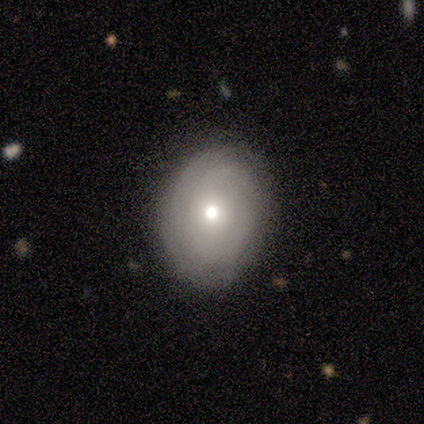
featured or disk 57%, smooth 43%, star or artifact 0%. Down the decision tree: edge-on disk — no (100%); bar — no (100%); spiral arms — yes (75%); spiral arm count — can't tell (100%); spiral winding — tight (100%); bulge size — moderate (50%, tied with small); merging — none (71%).